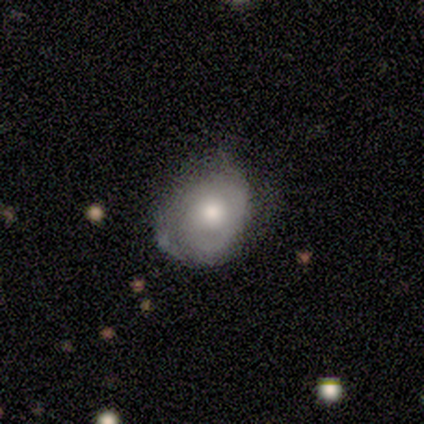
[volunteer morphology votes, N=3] A smooth galaxy with no disk features (67%) that is round (50%, tied with in between).

Vote fractions:
- Smooth or featured? smooth: 67% / featured or disk: 33% / star or artifact: 0%
- How rounded? round: 50% (tied) / in between: 50% (tied) / cigar-shaped: 0%
- Merging? none: 100% / minor disturbance: 0% / major disturbance: 0% / merger: 0%